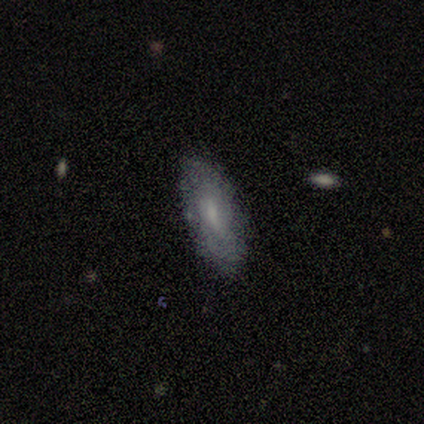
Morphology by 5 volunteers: smooth-or-featured: featured or disk: 60% | smooth: 40% | star or artifact: 0%
  disk-edge-on: no: 100% | yes: 0%
    bar: weak: 67% | no: 33% | strong: 0%
    has-spiral-arms: no: 67% | yes: 33%
    bulge-size: small: 67% | moderate: 33% | dominant: 0% | large: 0% | none: 0%
  merging: none: 80% | minor disturbance: 20% | major disturbance: 0% | merger: 0%